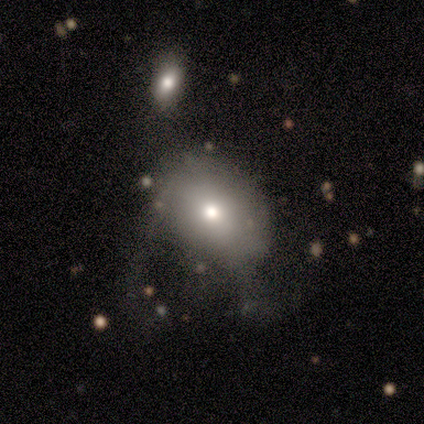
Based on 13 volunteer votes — Morphology: type=smooth (69%); roundness=in between (67%); merging=none (40%).